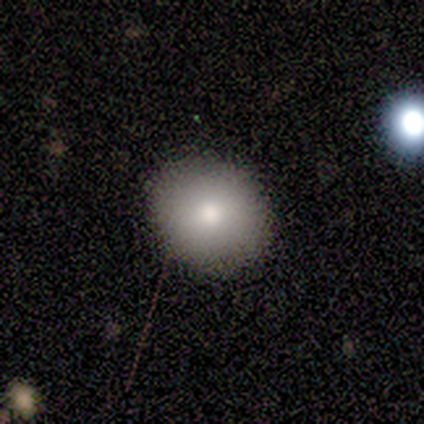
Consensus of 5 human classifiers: Volunteers were most divided on "how rounded": round: 80%, in between: 20%, cigar-shaped: 0%. More confident: smooth or featured — smooth (100%); merging — none (100%).